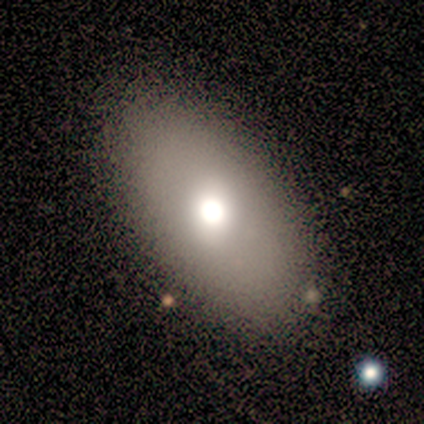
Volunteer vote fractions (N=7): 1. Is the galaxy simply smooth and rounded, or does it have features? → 71% smooth, 29% featured or disk, 0% star or artifact.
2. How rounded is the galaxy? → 100% in between, 0% round, 0% cigar-shaped.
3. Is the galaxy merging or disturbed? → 71% none, 14% minor disturbance, 14% major disturbance, 0% merger.